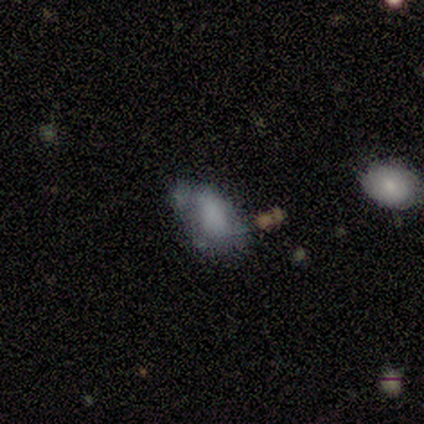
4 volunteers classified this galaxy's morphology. Smooth or featured?
  - smooth: 75% *
  - featured or disk: 25%
  - star or artifact: 0%
How rounded?
  - in between: 100% *
  - round: 0%
  - cigar-shaped: 0%
Merging?
  - none: 25% * (tied)
  - minor disturbance: 25% * (tied)
  - major disturbance: 25% * (tied)
  - merger: 25% * (tied)